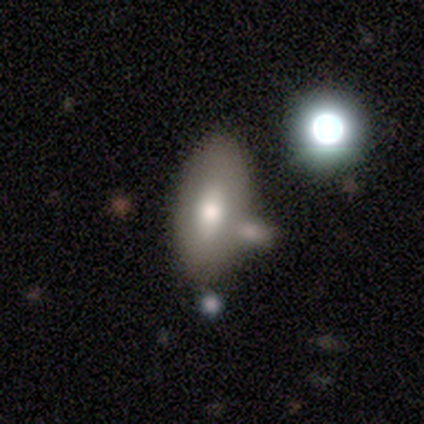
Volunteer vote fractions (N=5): smooth 60%, featured or disk 40%, star or artifact 0%. Down the decision tree: how rounded — in between (67%); merging — none (60%).